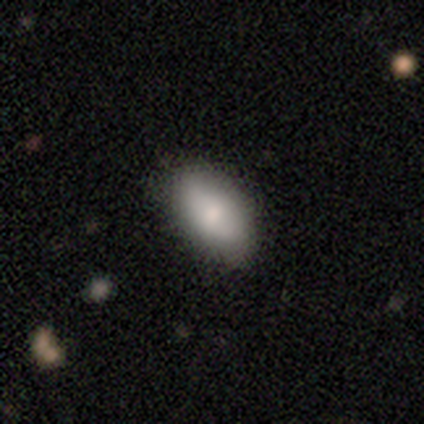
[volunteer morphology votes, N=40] smooth-or-featured: smooth: 75% | featured or disk: 15% | star or artifact: 10%
  how-rounded: in between: 93% | round: 7% | cigar-shaped: 0%
  merging: none: 83% | minor disturbance: 11% | major disturbance: 6% | merger: 0%